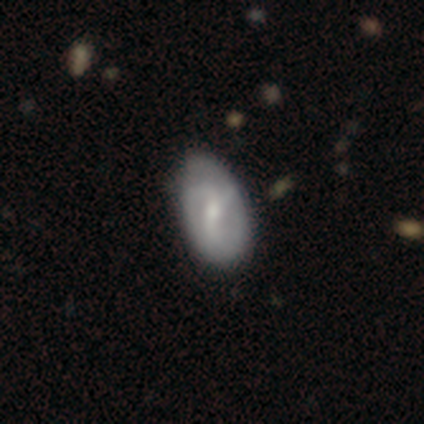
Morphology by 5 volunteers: Smooth or featured?
  - featured or disk: 60% *
  - smooth: 40%
  - star or artifact: 0%
Edge-on disk?
  - no: 100% *
  - yes: 0%
Bar?
  - no: 67% *
  - strong: 33%
  - weak: 0%
Spiral arms?
  - yes: 100% *
  - no: 0%
Spiral winding?
  - loose: 67% *
  - medium: 33%
  - tight: 0%
Spiral arm count?
  - 2: 33% * (tied)
  - 3: 33% * (tied)
  - can't tell: 33% * (tied)
  - 1: 0%
  - 4: 0%
  - more than 4: 0%
Bulge size?
  - moderate: 100% *
  - dominant: 0%
  - large: 0%
  - small: 0%
  - none: 0%
Merging?
  - none: 100% *
  - minor disturbance: 0%
  - major disturbance: 0%
  - merger: 0%